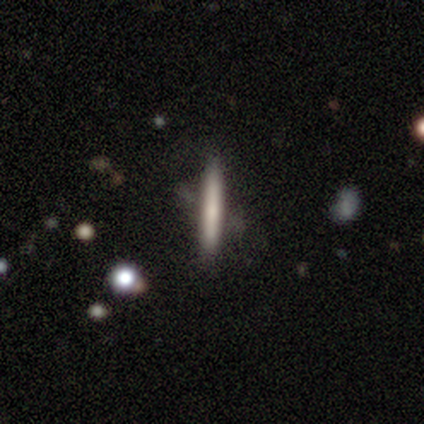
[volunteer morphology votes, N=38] smooth 58%, featured or disk 34%, star or artifact 8%. Down the decision tree: how rounded — cigar-shaped (100%); merging — none (83%).